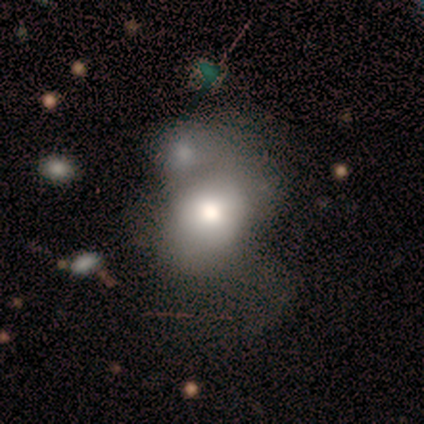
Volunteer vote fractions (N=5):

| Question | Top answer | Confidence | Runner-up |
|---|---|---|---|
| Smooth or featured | smooth | 80% | star or artifact (20%) |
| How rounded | round | 100% | — |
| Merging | none | 50% | minor disturbance (25%) |